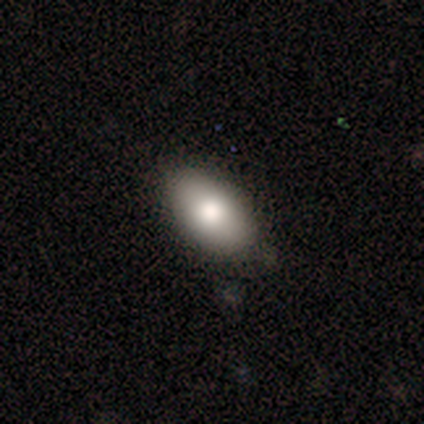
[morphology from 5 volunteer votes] smooth-or-featured: smooth: 80% | featured or disk: 20% | star or artifact: 0%
  how-rounded: in between: 100% | round: 0% | cigar-shaped: 0%
  merging: none: 80% | merger: 20% | minor disturbance: 0% | major disturbance: 0%